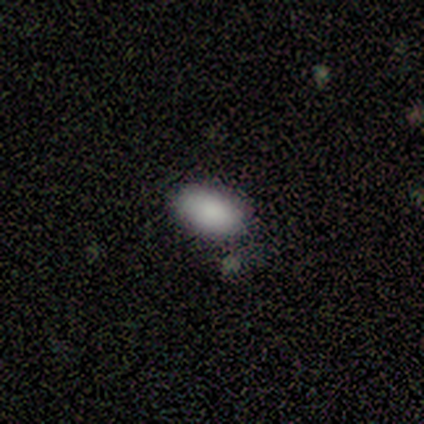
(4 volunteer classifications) Volunteers were most divided on "merging": none: 50%, minor disturbance: 25%, major disturbance: 25%, merger: 0%. More confident: smooth or featured — smooth (100%); how rounded — in between (100%).